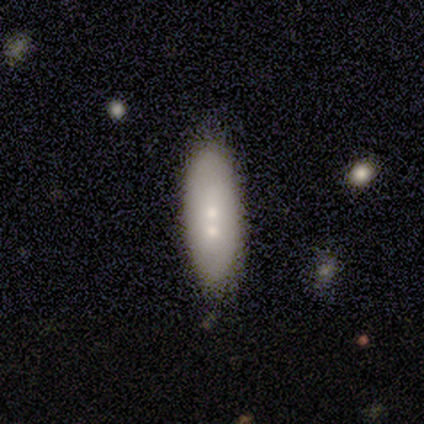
A smooth galaxy with no disk features (80%) that is in between round and cigar-shaped (50%, tied with cigar-shaped).

Vote fractions:
- Smooth or featured? smooth: 80% / star or artifact: 20% / featured or disk: 0%
- How rounded? in between: 50% (tied) / cigar-shaped: 50% (tied) / round: 0%
- Merging? none: 75% / major disturbance: 25% / minor disturbance: 0% / merger: 0%